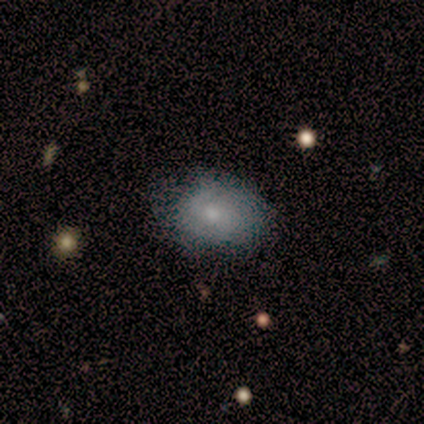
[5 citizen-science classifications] Q: Smooth or featured?
A: smooth (80%); runner-up: featured or disk (20%)
Q: How rounded?
A: in between (75%); runner-up: round (25%)
Q: Merging?
A: none (80%); runner-up: minor disturbance (20%)